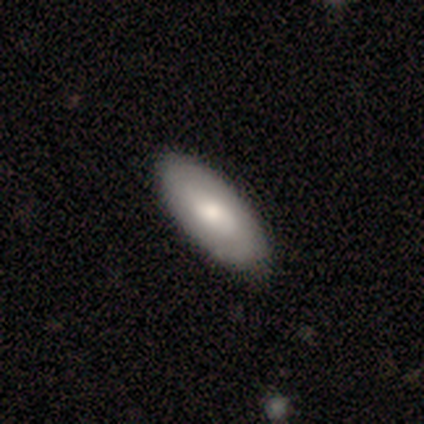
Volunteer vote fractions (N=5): smooth-or-featured: featured or disk: 60% | smooth: 40% | star or artifact: 0%
  disk-edge-on: no: 100% | yes: 0%
    bar: no: 100% | strong: 0% | weak: 0%
    has-spiral-arms: yes: 67% | no: 33%
      spiral-winding: tight: 100% | medium: 0% | loose: 0%
      spiral-arm-count: 1: 50% (tied) | can't tell: 50% (tied) | 2: 0% | 3: 0% | 4: 0% | more than 4: 0%
    bulge-size: moderate: 67% | small: 33% | dominant: 0% | large: 0% | none: 0%
  merging: none: 60% | minor disturbance: 40% | major disturbance: 0% | merger: 0%